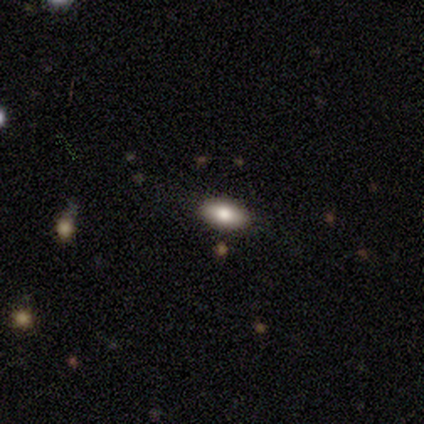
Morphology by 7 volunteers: Smooth or featured: smooth — 86% (featured or disk — 14%)
How rounded: in between — 83% (cigar-shaped — 17%)
Merging: none — 57% (minor disturbance — 29%)